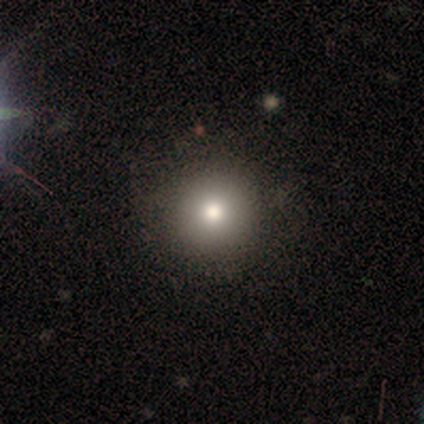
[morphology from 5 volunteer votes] Consensus on every question: smooth or featured — smooth (100%); how rounded — round (100%); merging — none (100%).